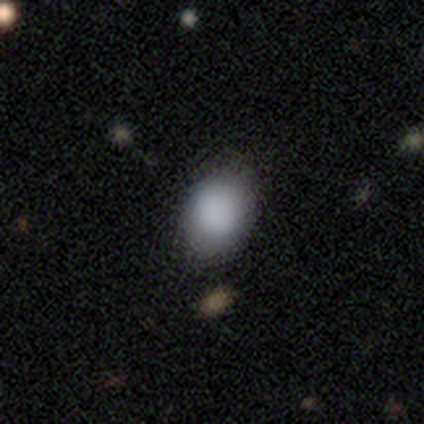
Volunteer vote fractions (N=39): Overall: smooth (85%). How rounded: in between (70%; round 30%). Merging: none (70%).